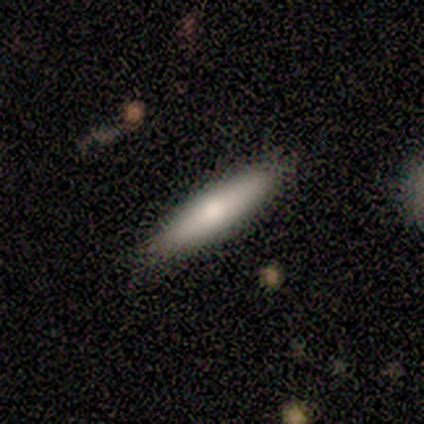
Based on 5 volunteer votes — Q: Smooth or featured?
A: featured or disk (60%); runner-up: smooth (40%)
Q: Edge-on disk?
A: yes (67%); runner-up: no (33%)
Q: Edge-on bulge?
A: rounded (100%)
Q: Merging?
A: none (80%); runner-up: minor disturbance (20%)